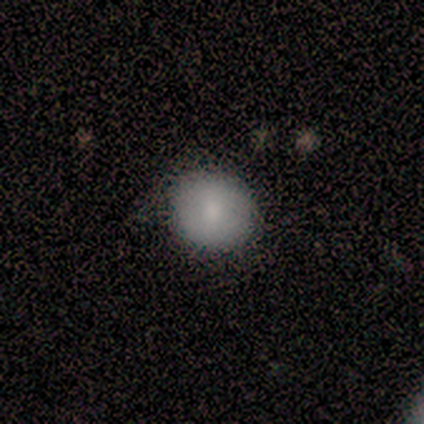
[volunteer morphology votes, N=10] Smooth or featured?
  - smooth: 100% *
  - featured or disk: 0%
  - star or artifact: 0%
How rounded?
  - round: 90% *
  - in between: 10%
  - cigar-shaped: 0%
Merging?
  - none: 90% *
  - minor disturbance: 10%
  - major disturbance: 0%
  - merger: 0%